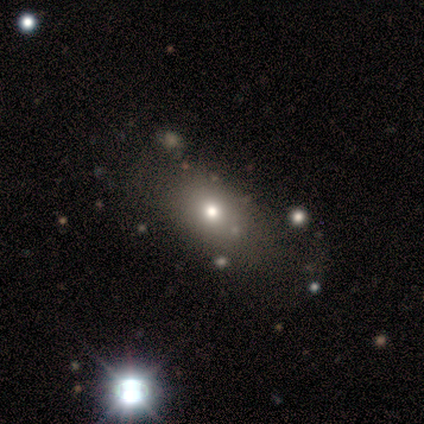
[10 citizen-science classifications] Q: Smooth or featured?
A: smooth (80%); runner-up: featured or disk (10%)
Q: How rounded?
A: in between (100%)
Q: Merging?
A: none (78%); runner-up: minor disturbance (22%)